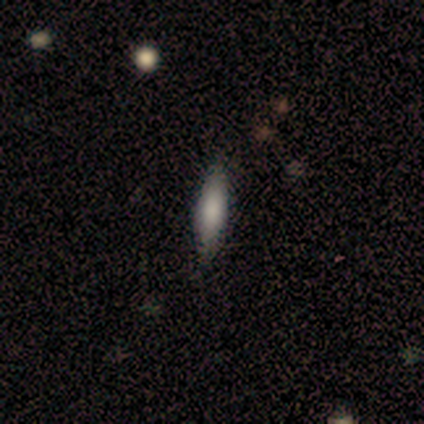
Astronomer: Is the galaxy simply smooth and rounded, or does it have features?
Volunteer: smooth — 69%.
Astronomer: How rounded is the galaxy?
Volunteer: cigar-shaped — 67%.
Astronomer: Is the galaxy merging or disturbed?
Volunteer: none — 100%.